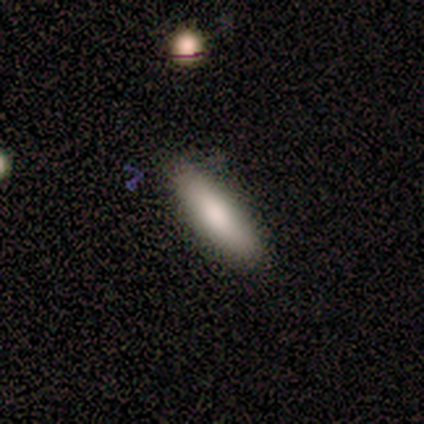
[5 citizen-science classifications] smooth_or_featured: smooth (p=1.00)
how_rounded: cigar-shaped (p=0.60) [alt: in between p=0.40]
merging: none (p=0.60) [alt: minor disturbance p=0.40]